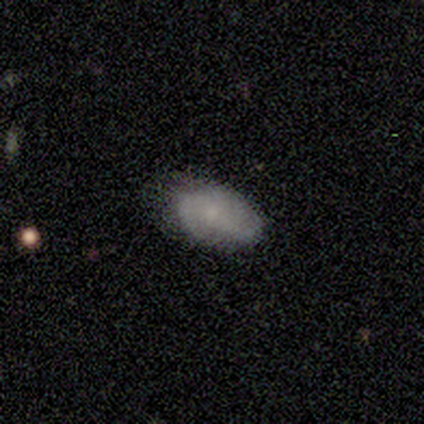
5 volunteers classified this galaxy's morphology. Smooth or featured?
  - featured or disk: 60% *
  - smooth: 40%
  - star or artifact: 0%
Edge-on disk?
  - no: 100% *
  - yes: 0%
Bar?
  - no: 100% *
  - strong: 0%
  - weak: 0%
Spiral arms?
  - yes: 100% *
  - no: 0%
Spiral winding?
  - medium: 67% *
  - tight: 33%
  - loose: 0%
Spiral arm count?
  - can't tell: 67% *
  - 2: 33%
  - 1: 0%
  - 3: 0%
  - 4: 0%
  - more than 4: 0%
Bulge size?
  - small: 67% *
  - moderate: 33%
  - dominant: 0%
  - large: 0%
  - none: 0%
Merging?
  - none: 80% *
  - minor disturbance: 20%
  - major disturbance: 0%
  - merger: 0%